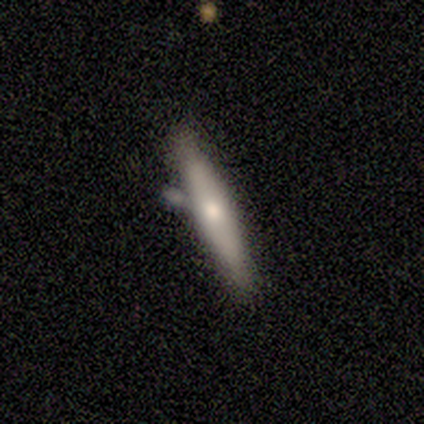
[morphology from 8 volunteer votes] A smooth galaxy with no disk features (50%, tied with featured or disk) that is cigar-shaped (100%). Merging: merger (38%).